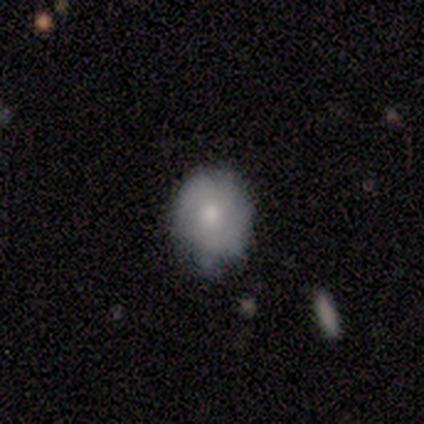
Q: Smooth or featured?
A: smooth (60%); runner-up: featured or disk (40%)
Q: How rounded?
A: round (100%)
Q: Merging?
A: none (60%); runner-up: minor disturbance (40%)